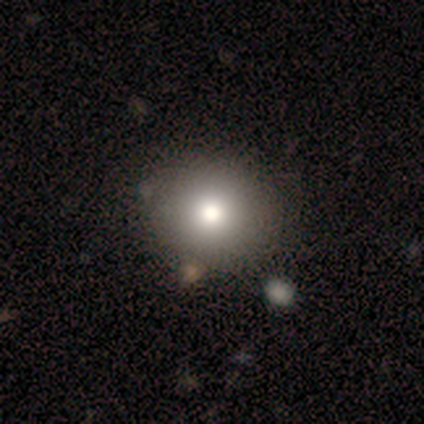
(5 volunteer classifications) Q: Smooth or featured?
A: smooth (60%); runner-up: featured or disk (20%)
Q: How rounded?
A: round (67%); runner-up: in between (33%)
Q: Merging?
A: none (100%)